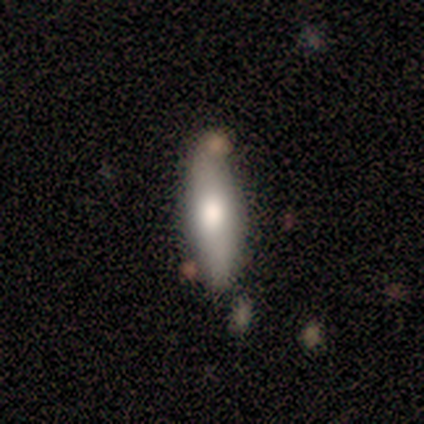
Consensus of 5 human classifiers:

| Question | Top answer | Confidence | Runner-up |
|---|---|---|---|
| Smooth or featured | smooth | 80% | featured or disk (20%) |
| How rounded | in between | 75% | cigar-shaped (25%) |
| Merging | none | 60% | minor disturbance (40%) |